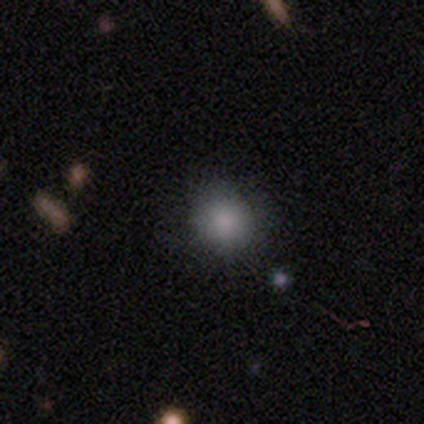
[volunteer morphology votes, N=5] Smooth or featured?
  - smooth: 100% *
  - featured or disk: 0%
  - star or artifact: 0%
How rounded?
  - round: 100% *
  - in between: 0%
  - cigar-shaped: 0%
Merging?
  - none: 100% *
  - minor disturbance: 0%
  - major disturbance: 0%
  - merger: 0%